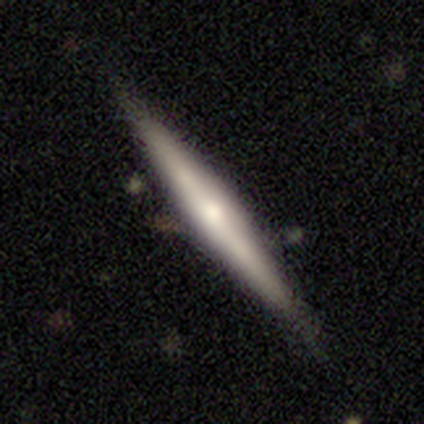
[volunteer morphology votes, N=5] smooth-or-featured: featured or disk: 100% | smooth: 0% | star or artifact: 0%
  disk-edge-on: yes: 100% | no: 0%
    edge-on-bulge: rounded: 60% | boxy: 20% | none: 20%
  merging: none: 60% | minor disturbance: 40% | major disturbance: 0% | merger: 0%